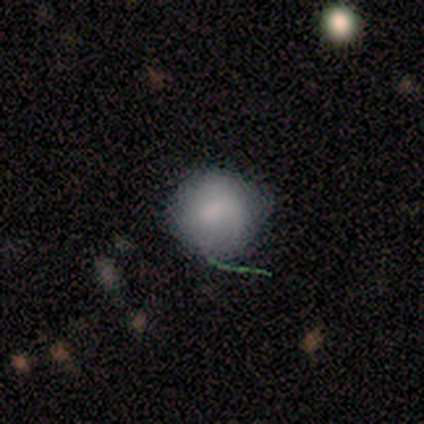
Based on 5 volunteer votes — This appears to be a smooth galaxy with no disk features (80%) that is round (75%). Merging: minor disturbance (50%).